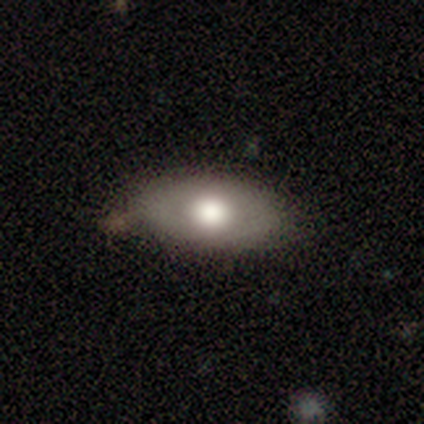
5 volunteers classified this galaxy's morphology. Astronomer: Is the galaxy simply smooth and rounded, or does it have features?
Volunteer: smooth — 80%.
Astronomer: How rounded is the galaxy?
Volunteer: in between — 75%.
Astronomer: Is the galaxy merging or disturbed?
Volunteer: none — 80%.